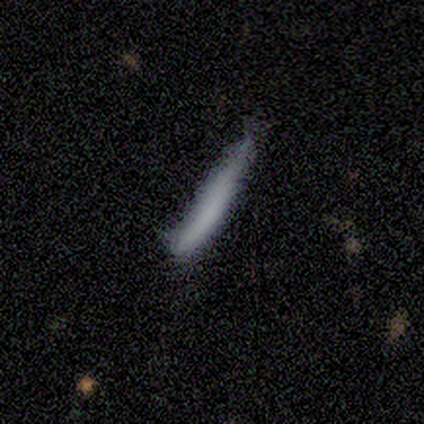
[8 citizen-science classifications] A smooth galaxy with no disk features (50%, tied with featured or disk) that is cigar-shaped (100%).

Vote fractions:
- Smooth or featured? smooth: 50% (tied) / featured or disk: 50% (tied) / star or artifact: 0%
- How rounded? cigar-shaped: 100% / round: 0% / in between: 0%
- Merging? none: 62% / minor disturbance: 38% / major disturbance: 0% / merger: 0%